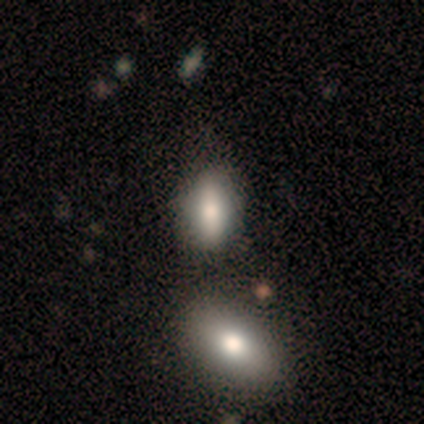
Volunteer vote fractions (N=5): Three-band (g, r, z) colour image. It shows a smooth galaxy with no disk features (100%) that is in between round and cigar-shaped (60%). Merging: none (80%).